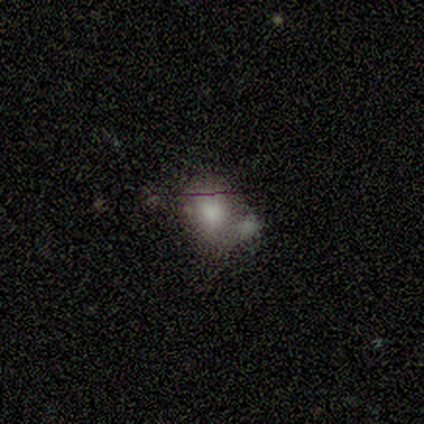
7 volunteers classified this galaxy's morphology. This is likely a smooth galaxy (71%). How rounded: likely round (60%). Merging: marginally none (40%, tied with merger).